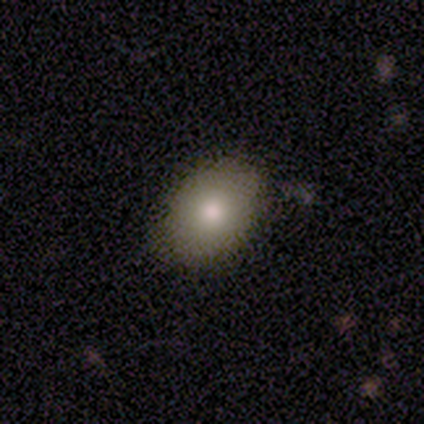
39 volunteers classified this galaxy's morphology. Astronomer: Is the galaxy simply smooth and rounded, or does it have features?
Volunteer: smooth — 82%.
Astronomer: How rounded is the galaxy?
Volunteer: in between — 69%.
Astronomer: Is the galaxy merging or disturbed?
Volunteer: none — 89%.